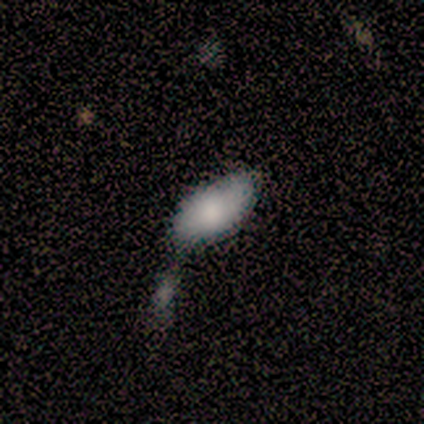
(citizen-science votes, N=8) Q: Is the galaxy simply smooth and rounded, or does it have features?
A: smooth — 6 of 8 (75%).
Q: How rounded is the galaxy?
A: in between — 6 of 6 (100%).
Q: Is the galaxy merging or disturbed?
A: merger — 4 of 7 (57%).